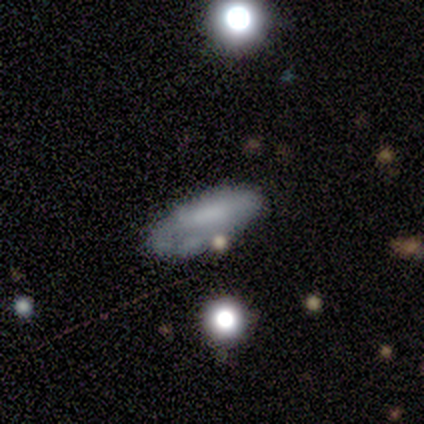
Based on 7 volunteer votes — Overall: smooth (86%). How rounded: in between (67%; cigar-shaped 33%). Merging: none (71%).